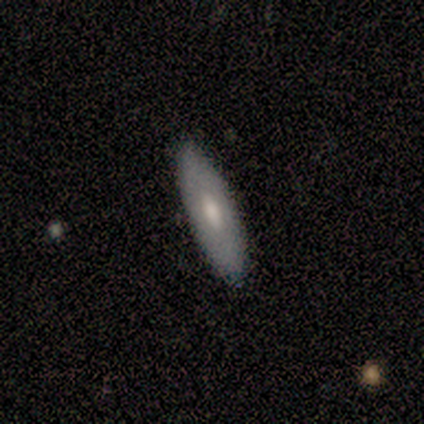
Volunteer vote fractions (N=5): Smooth or featured? featured or disk (80%)
Edge-on disk? no (100%)
Bar? no (75%)
Spiral arms? no (100%)
Bulge size? moderate (75%)
Merging? none (100%)